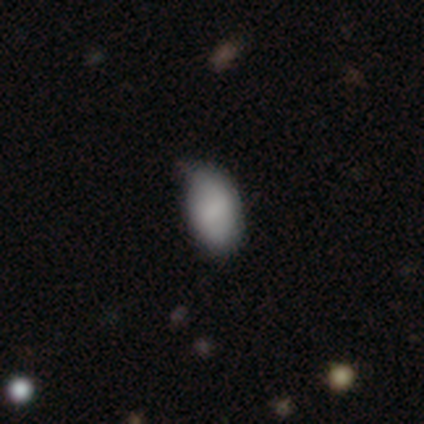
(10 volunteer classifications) A smooth galaxy with no disk features (80%) that is in between round and cigar-shaped (100%). Merging: none (50%, tied with minor disturbance).